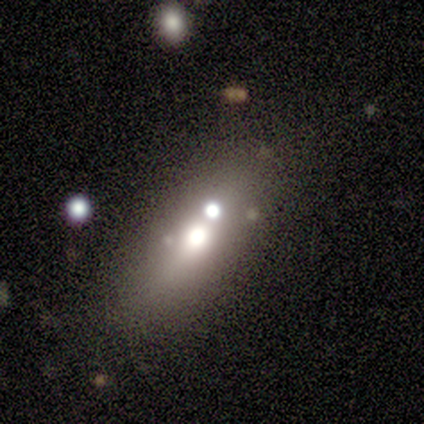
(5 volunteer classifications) This is likely a smooth galaxy (60%). How rounded: likely in between (67%). Merging: possibly none (50%, tied with merger).